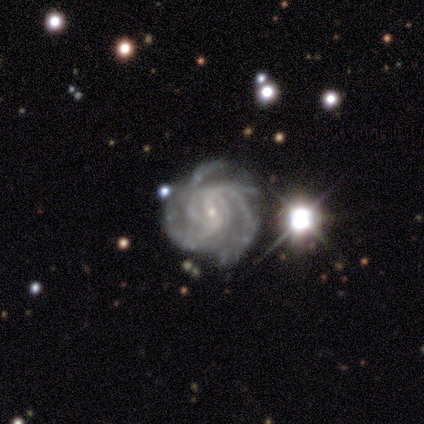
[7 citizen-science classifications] Smooth or featured? featured or disk (100%)
Edge-on disk? no (100%)
Bar? weak (86%)
Spiral arms? yes (100%)
Spiral winding? tight (71%)
Spiral arm count? 4 (57%)
Bulge size? small (100%)
Merging? none (71%)